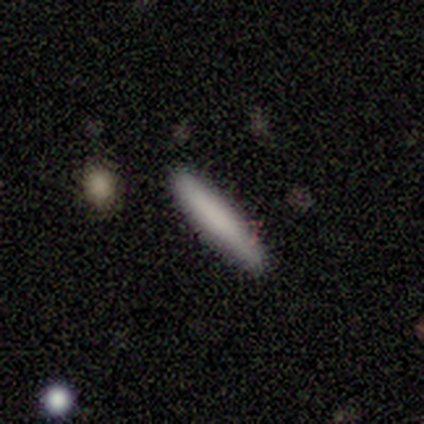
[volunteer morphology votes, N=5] Smooth or featured? 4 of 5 (80%) said smooth. How rounded? 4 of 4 (100%) said cigar-shaped. Merging? 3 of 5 (60%) said none.